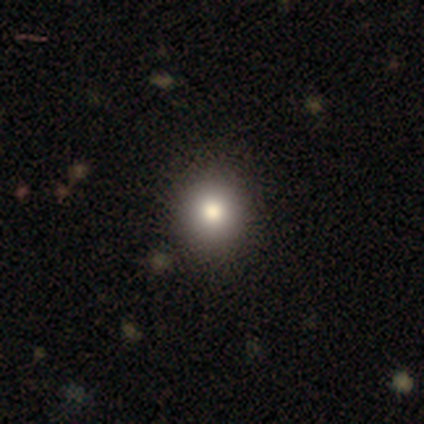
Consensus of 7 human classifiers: Smooth or featured?
  - smooth: 57% *
  - featured or disk: 29%
  - star or artifact: 14%
How rounded?
  - round: 75% *
  - in between: 25%
  - cigar-shaped: 0%
Merging?
  - none: 83% *
  - merger: 17%
  - minor disturbance: 0%
  - major disturbance: 0%